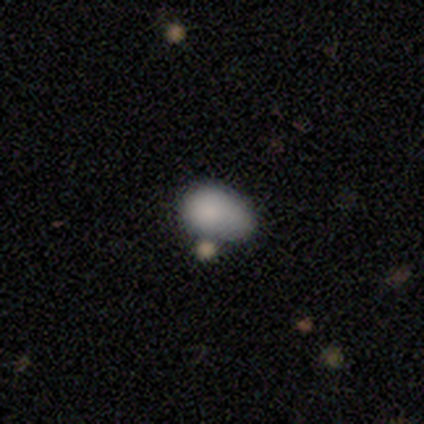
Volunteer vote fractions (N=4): smooth_or_featured: smooth (p=0.50) [tied with: featured or disk p=0.50]
how_rounded: in between (p=1.00)
merging: minor disturbance (p=0.75) [alt: major disturbance p=0.25]